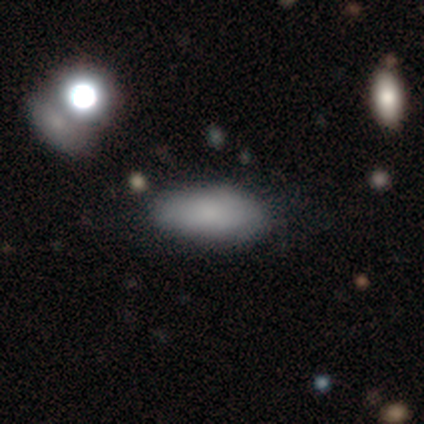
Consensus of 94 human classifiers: smooth 77%, featured or disk 13%, star or artifact 11%. Down the decision tree: how rounded — in between (81%); merging — none (65%).